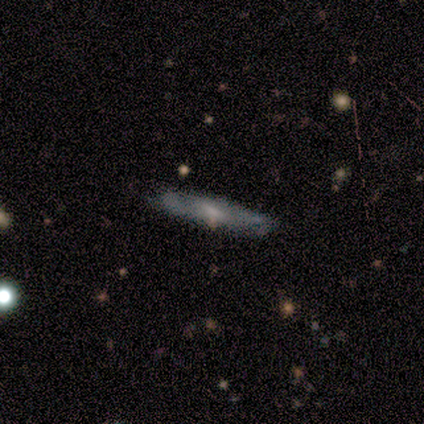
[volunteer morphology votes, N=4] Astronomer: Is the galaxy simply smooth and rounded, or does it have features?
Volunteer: featured or disk — 75%.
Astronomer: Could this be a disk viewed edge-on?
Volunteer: yes — 100%.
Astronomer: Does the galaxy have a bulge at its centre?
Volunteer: boxy — 67%.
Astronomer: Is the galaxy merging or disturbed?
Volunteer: none — 50%, tied with minor disturbance at 50%.